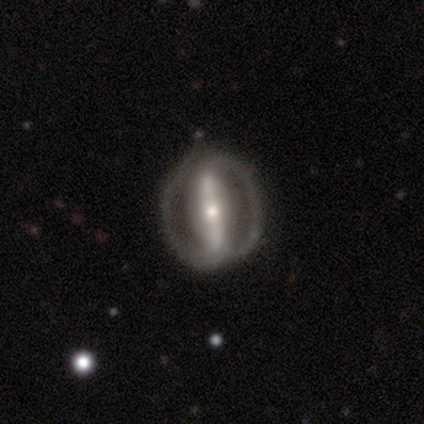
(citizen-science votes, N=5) smooth_or_featured: featured or disk (p=1.00)
disk_edge_on: no (p=0.80) [alt: yes p=0.20]
bar: strong (p=1.00)
has_spiral_arms: no (p=0.75) [alt: yes p=0.25]
bulge_size: small (p=0.75) [alt: moderate p=0.25]
merging: none (p=1.00)